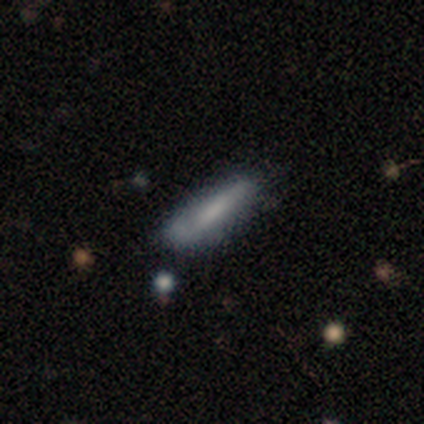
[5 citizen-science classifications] A smooth galaxy with no disk features (60%) that is cigar-shaped (67%).

Vote fractions:
- Smooth or featured? smooth: 60% / featured or disk: 40% / star or artifact: 0%
- How rounded? cigar-shaped: 67% / in between: 33% / round: 0%
- Merging? none: 80% / minor disturbance: 20% / major disturbance: 0% / merger: 0%